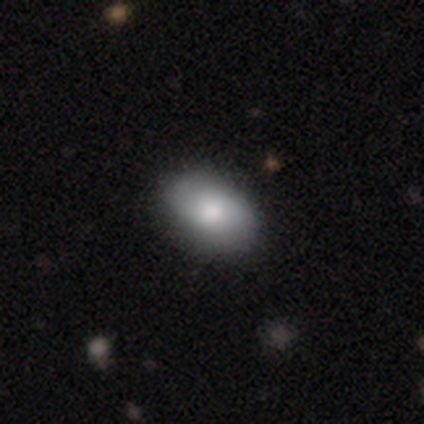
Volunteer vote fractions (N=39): This appears to be a smooth galaxy with no disk features (77%) that is in between round and cigar-shaped (93%). Merging: none (77%).